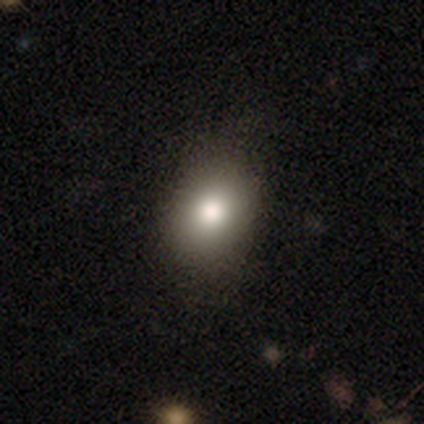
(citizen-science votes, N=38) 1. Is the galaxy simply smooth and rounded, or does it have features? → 76% smooth, 13% featured or disk, 11% star or artifact.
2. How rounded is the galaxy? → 72% in between, 28% round, 0% cigar-shaped.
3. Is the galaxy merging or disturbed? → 53% none, 9% minor disturbance, 0% major disturbance, 0% merger.